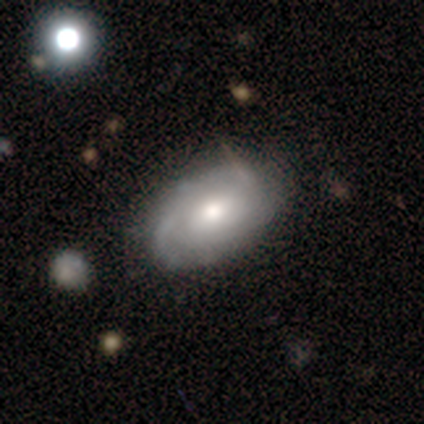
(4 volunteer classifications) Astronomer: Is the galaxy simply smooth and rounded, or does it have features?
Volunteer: featured or disk — 100%.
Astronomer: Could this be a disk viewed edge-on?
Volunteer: no — 100%.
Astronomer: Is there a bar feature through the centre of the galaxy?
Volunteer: weak — 75%.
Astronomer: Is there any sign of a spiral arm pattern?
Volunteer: yes — 100%.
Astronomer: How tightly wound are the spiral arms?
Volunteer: medium — 50%.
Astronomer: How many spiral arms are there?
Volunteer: can't tell — 75%.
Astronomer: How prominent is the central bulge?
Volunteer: moderate — 50%.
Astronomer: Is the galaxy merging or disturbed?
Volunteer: none — 75%.